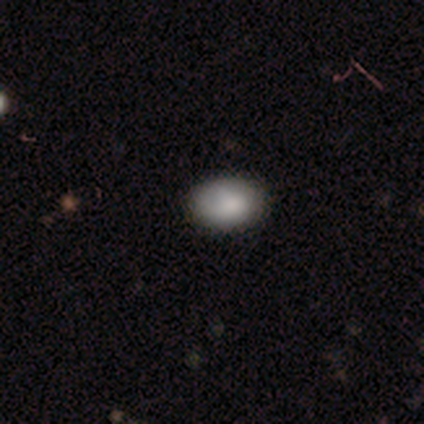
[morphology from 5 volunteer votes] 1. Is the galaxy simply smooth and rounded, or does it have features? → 100% smooth, 0% featured or disk, 0% star or artifact.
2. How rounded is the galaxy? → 60% in between, 40% round, 0% cigar-shaped.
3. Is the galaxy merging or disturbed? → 80% none, 20% minor disturbance, 0% major disturbance, 0% merger.